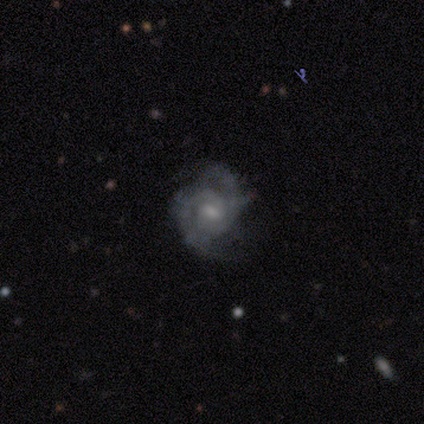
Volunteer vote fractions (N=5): A featured or disk galaxy (100%) with a weak bar (40%, tied with no), 2 (100%) tight (75%) spiral arms (80%) and a small central bulge (60%).

Vote fractions:
- Smooth or featured? featured or disk: 100% / smooth: 0% / star or artifact: 0%
- Edge-on disk? no: 100% / yes: 0%
- Bar? weak: 40% (tied) / no: 40% (tied) / strong: 20%
- Spiral arms? yes: 80% / no: 20%
- Spiral winding? tight: 75% / loose: 25% / medium: 0%
- Spiral arm count? 2: 100% / 1: 0% / 3: 0% / 4: 0% / more than 4: 0% / can't tell: 0%
- Bulge size? small: 60% / moderate: 40% / dominant: 0% / large: 0% / none: 0%
- Merging? none: 60% / minor disturbance: 20% / major disturbance: 20% / merger: 0%